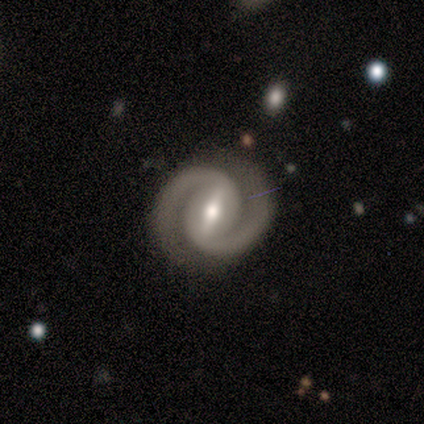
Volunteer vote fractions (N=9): Overall: featured or disk (89%). Edge-on disk: no (100%). Bar: strong (88%). Spiral arms: yes (100%). Spiral arm count: 2 (100%). Spiral winding: tight (88%). Bulge size: moderate (88%). Merging: none (88%).